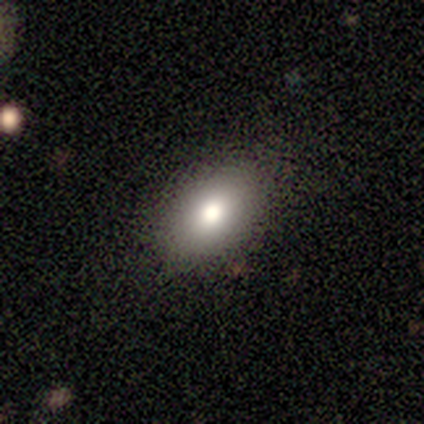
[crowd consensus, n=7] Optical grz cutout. It shows a smooth galaxy with no disk features (100%) that is in between round and cigar-shaped (86%). Merging: none (100%).